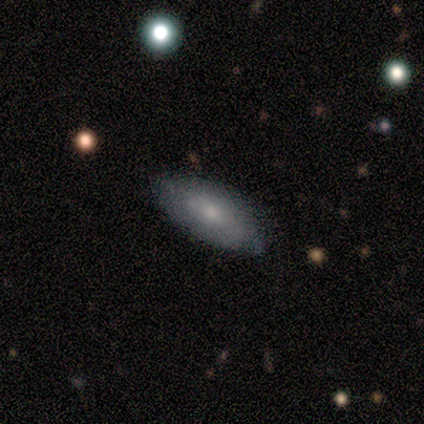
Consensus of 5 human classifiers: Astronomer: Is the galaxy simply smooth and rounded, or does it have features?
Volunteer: smooth — 80%.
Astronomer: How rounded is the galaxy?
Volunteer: in between — 75%.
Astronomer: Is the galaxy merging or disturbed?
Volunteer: none — 80%.